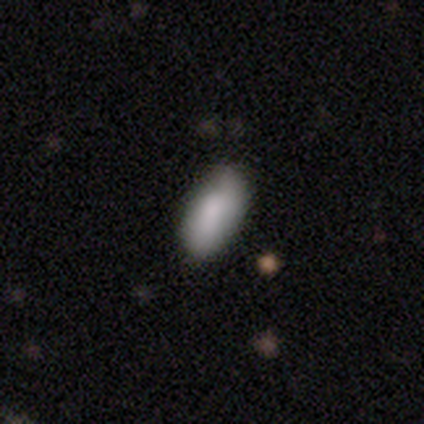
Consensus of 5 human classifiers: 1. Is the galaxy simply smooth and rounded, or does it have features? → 100% smooth, 0% featured or disk, 0% star or artifact.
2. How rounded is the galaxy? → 100% in between, 0% round, 0% cigar-shaped.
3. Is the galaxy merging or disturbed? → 80% none, 20% minor disturbance, 0% major disturbance, 0% merger.